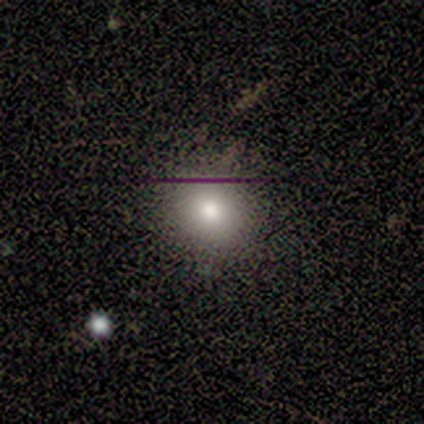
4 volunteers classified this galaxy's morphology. smooth_or_featured: smooth (p=0.75) [alt: featured or disk p=0.25]
how_rounded: round (p=1.00)
merging: none (p=1.00)